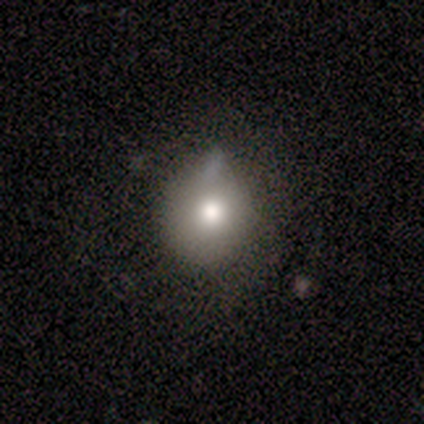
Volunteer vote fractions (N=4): Smooth or featured? 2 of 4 (50%, tied with star or artifact) said smooth. How rounded? 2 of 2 (100%) said round. Merging? 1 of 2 (50%, tied with minor disturbance) said none.